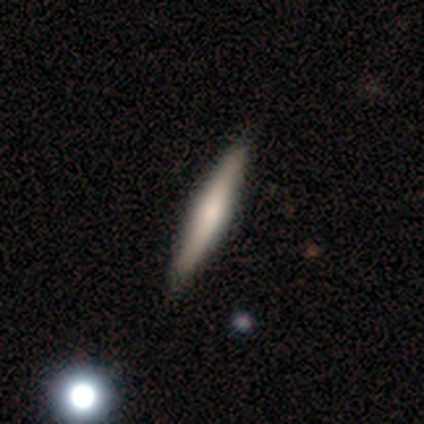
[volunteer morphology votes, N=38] smooth-or-featured: smooth: 61% | featured or disk: 39% | star or artifact: 0%
  how-rounded: cigar-shaped: 100% | round: 0% | in between: 0%
  merging: none: 58% | minor disturbance: 11% | major disturbance: 3% | merger: 3%